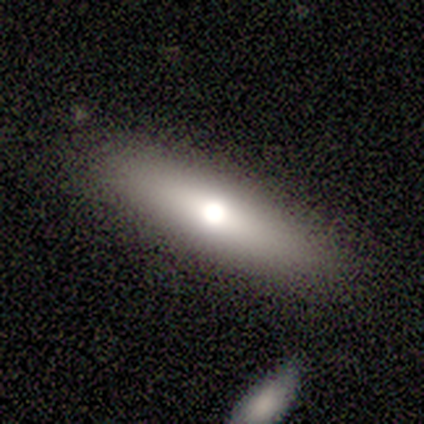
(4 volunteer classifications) Overall: smooth (50%, tied with featured or disk). How rounded: cigar-shaped (100%). Merging: none (75%).